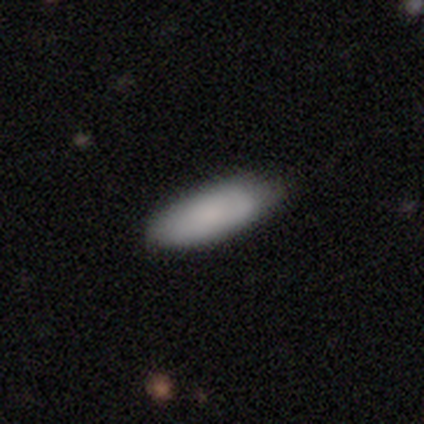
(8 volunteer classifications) This appears to be a smooth galaxy with no disk features (88%) that is in between round and cigar-shaped (71%). Merging: none (88%).